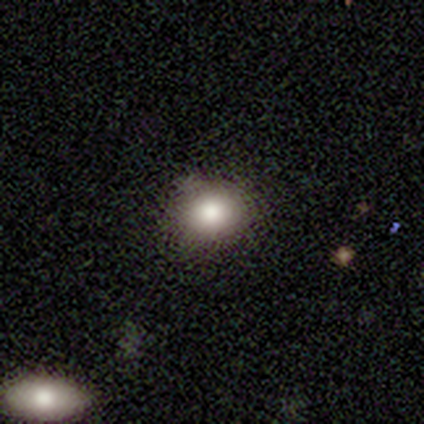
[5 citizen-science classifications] Smooth or featured? 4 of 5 (80%) said smooth. How rounded? 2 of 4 (50%, tied with in between) said round. Merging? 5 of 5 (100%) said none.